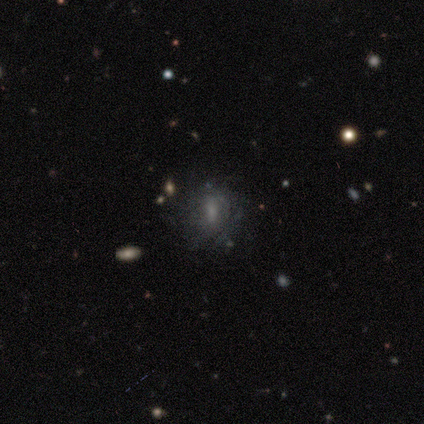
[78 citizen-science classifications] smooth_or_featured: featured or disk (p=0.49) [alt: smooth p=0.32]
disk_edge_on: no (p=1.00)
bar: weak (p=0.42) [alt: strong p=0.29]
has_spiral_arms: yes (p=0.55) [alt: no p=0.45]
spiral_winding: medium (p=0.52) [alt: tight p=0.29]
spiral_arm_count: can't tell (p=0.67) [alt: more than 4 p=0.14]
bulge_size: none (p=0.45) [alt: small p=0.29]
merging: none (p=0.46) [alt: minor disturbance p=0.10]